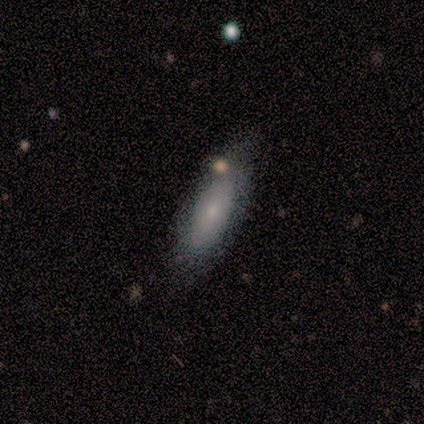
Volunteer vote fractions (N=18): smooth 72%, featured or disk 17%, star or artifact 11%. Down the decision tree: how rounded — in between (69%); merging — none (75%).